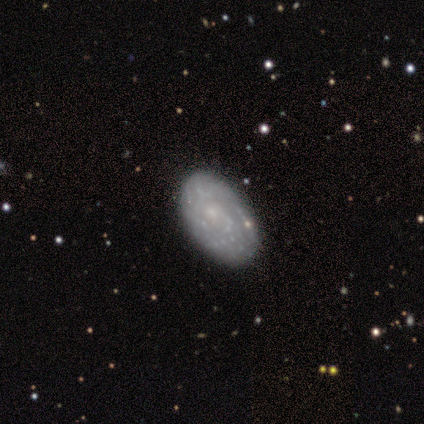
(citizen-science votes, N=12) This is possibly a smooth galaxy (50%). How rounded: clearly in between (100%). Merging: likely none (64%).